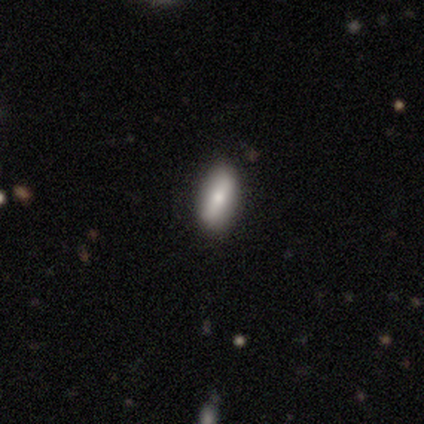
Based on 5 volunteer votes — smooth 60%, featured or disk 40%, star or artifact 0%. Down the decision tree: how rounded — in between (100%); merging — none (80%).